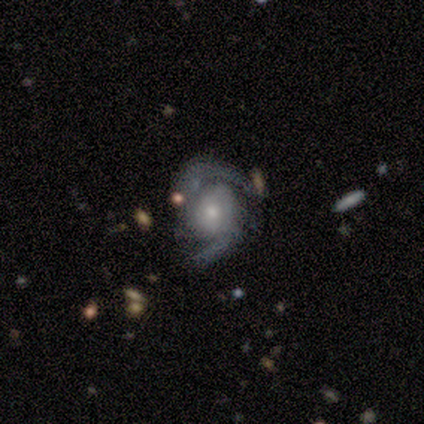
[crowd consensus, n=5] Overall: featured or disk (100%). Edge-on disk: no (100%). Bar: no (100%). Spiral arms: yes (100%). Spiral arm count: 2 (100%). Spiral winding: medium (80%). Bulge size: moderate (80%). Merging: none (80%).